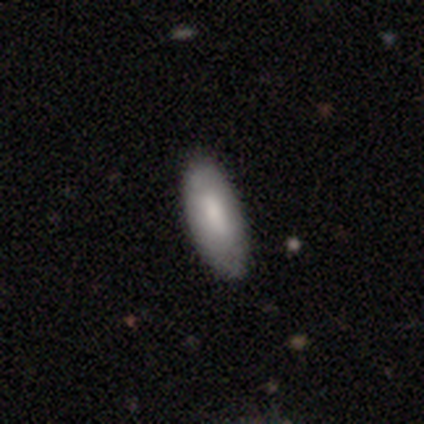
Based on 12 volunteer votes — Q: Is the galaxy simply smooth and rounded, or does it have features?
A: smooth — 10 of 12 (83%).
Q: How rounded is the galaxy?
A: in between — 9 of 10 (90%).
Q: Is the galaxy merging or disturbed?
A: none — 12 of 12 (100%).